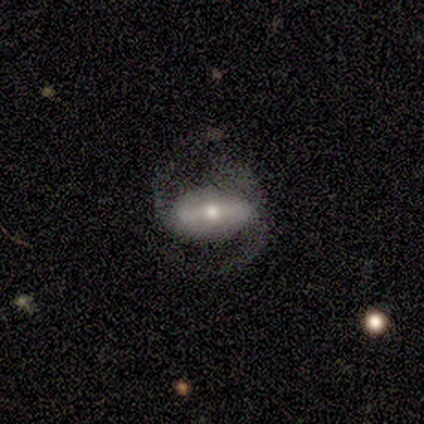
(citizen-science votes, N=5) featured or disk 80%, smooth 20%, star or artifact 0%. Down the decision tree: edge-on disk — no (100%); bar — strong (50%, tied with weak); spiral arms — yes (100%); spiral arm count — 2 (100%); spiral winding — medium (50%, tied with loose); bulge size — small (75%); merging — none (100%).